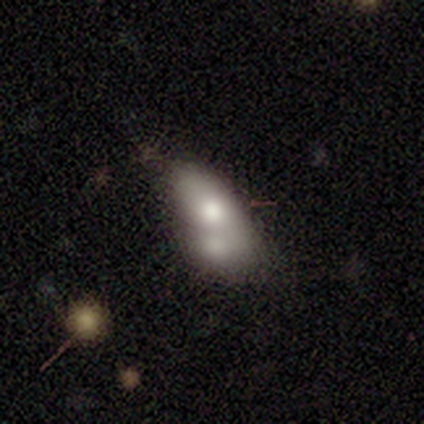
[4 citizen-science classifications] smooth-or-featured: smooth: 100% | featured or disk: 0% | star or artifact: 0%
  how-rounded: in between: 100% | round: 0% | cigar-shaped: 0%
  merging: merger: 50% | minor disturbance: 25% | major disturbance: 25% | none: 0%